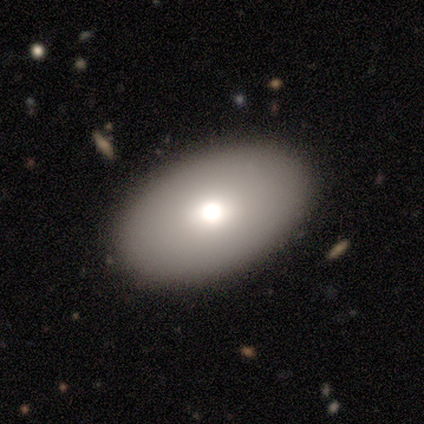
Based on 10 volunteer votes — smooth 90%, featured or disk 10%, star or artifact 0%. Down the decision tree: how rounded — in between (89%); merging — none (80%).